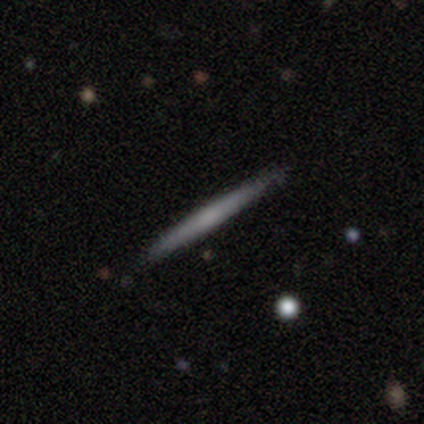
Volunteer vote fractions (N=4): Smooth or featured: smooth — 75% (featured or disk — 25%)
How rounded: cigar-shaped — 100%
Merging: none — 100%